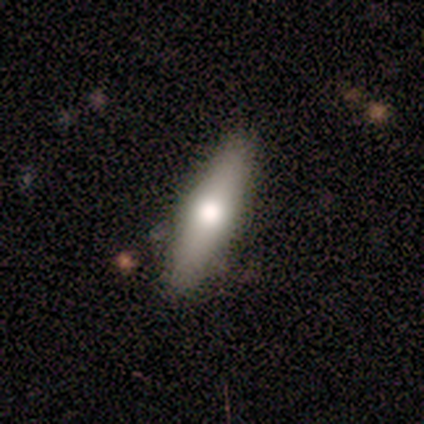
This appears to be a smooth galaxy with no disk features (80%) that is cigar-shaped (75%). Merging: none (60%).